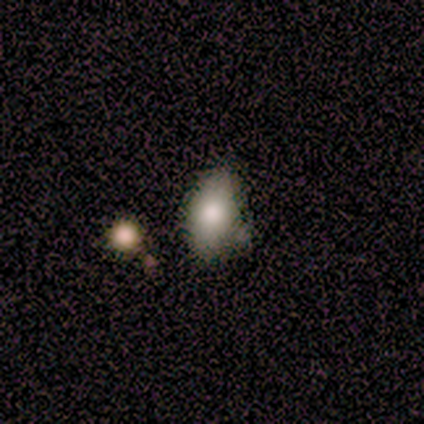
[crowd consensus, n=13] Smooth or featured: smooth — 69% (star or artifact — 23%)
How rounded: in between — 89% (round — 11%)
Merging: none — 50% (merger — 30%)